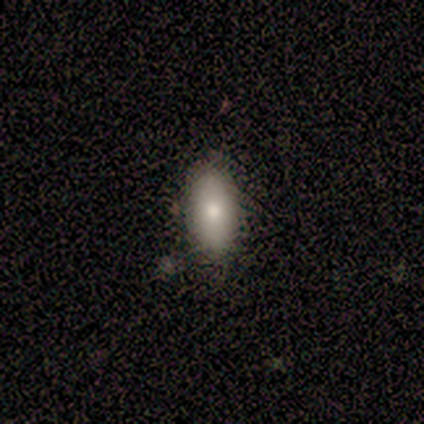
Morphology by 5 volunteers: A smooth galaxy with no disk features (80%) that is in between round and cigar-shaped (100%). Merging: none (100%).